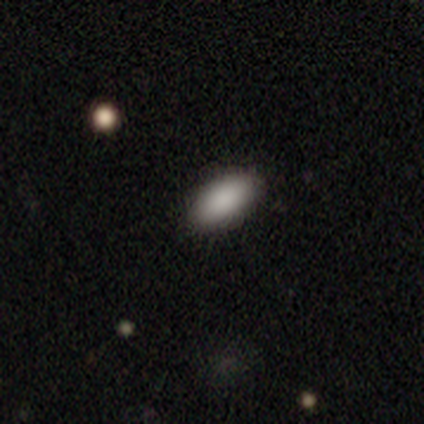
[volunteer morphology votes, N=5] Smooth or featured? 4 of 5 (80%) said smooth. How rounded? 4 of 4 (100%) said in between. Merging? 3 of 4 (75%) said none.